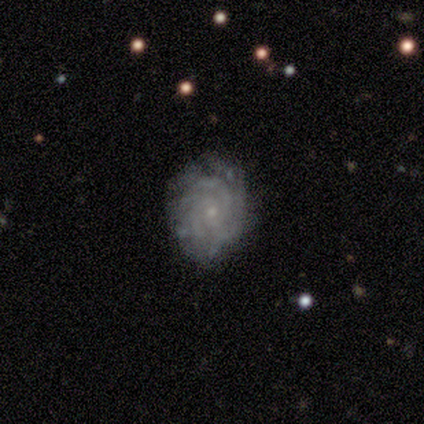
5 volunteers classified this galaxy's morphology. This is clearly a featured or disk galaxy (80%). It is clearly not viewed edge-on (100%). Bar: clearly no (100%). Spiral arm pattern: clearly yes (100%). Spiral arm count: possibly can't tell (50%). Spiral winding: possibly tight (50%, tied with medium). Central bulge: clearly small (100%). Merging: likely none (60%).